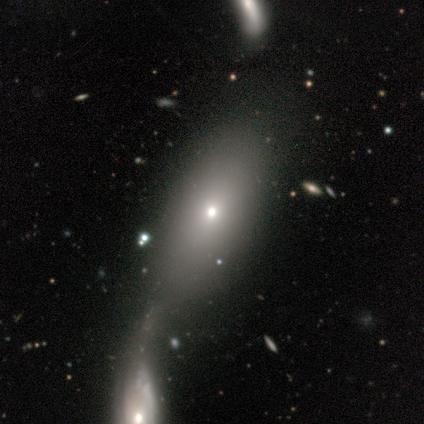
A smooth galaxy with no disk features (77%) that is in between round and cigar-shaped (95%).

Vote fractions:
- Smooth or featured? smooth: 77% / featured or disk: 17% / star or artifact: 6%
- How rounded? in between: 95% / round: 3% / cigar-shaped: 3%
- Merging? merger: 51% / none: 33% / minor disturbance: 9% / major disturbance: 7%